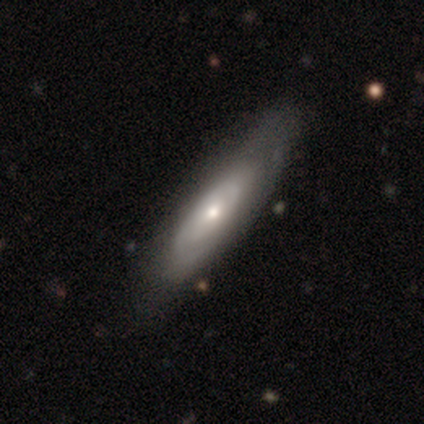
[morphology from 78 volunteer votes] This appears to be a featured or disk galaxy (60%) with no bar (89%), medium (50%) spiral arms (53%) and a moderate central bulge (50%). Merging: none (39%).